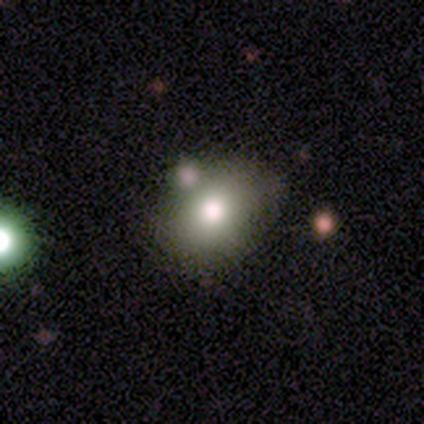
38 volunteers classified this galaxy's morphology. Smooth or featured: smooth — 76% (star or artifact — 13%)
How rounded: in between — 55% (round — 45%)
Merging: none — 73% (minor disturbance — 15%)